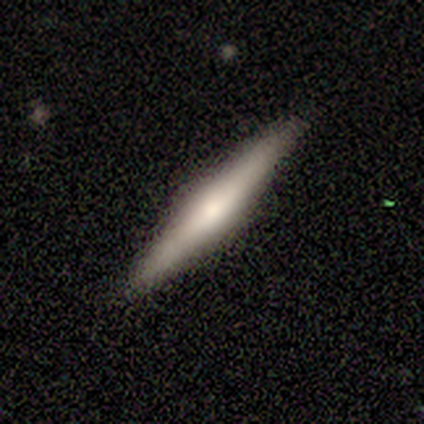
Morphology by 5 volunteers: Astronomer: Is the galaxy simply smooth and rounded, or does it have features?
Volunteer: featured or disk — 80%.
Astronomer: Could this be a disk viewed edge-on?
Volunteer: yes — 100%.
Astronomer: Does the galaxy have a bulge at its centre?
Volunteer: rounded — 50%.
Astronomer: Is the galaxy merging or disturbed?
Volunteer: none — 100%.